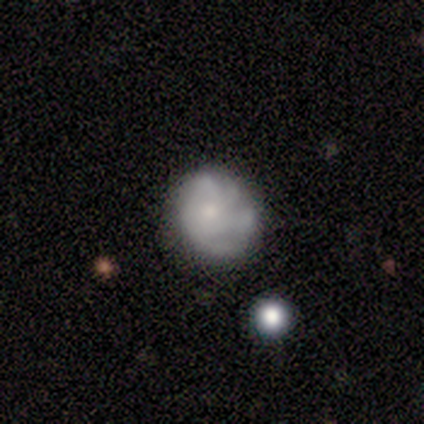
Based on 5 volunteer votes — A featured or disk galaxy (60%) with no bar (100%), no spiral arms (100%) and a dominant central bulge (33%, tied with moderate and small).

Vote fractions:
- Smooth or featured? featured or disk: 60% / smooth: 20% / star or artifact: 20%
- Edge-on disk? no: 100% / yes: 0%
- Bar? no: 100% / strong: 0% / weak: 0%
- Spiral arms? no: 100% / yes: 0%
- Bulge size? dominant: 33% (tied) / moderate: 33% (tied) / small: 33% (tied) / large: 0% / none: 0%
- Merging? none: 50% (tied) / major disturbance: 50% (tied) / minor disturbance: 0% / merger: 0%